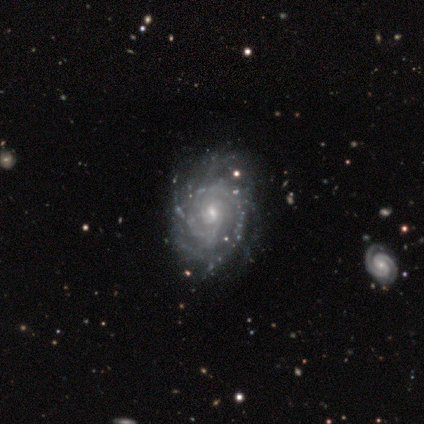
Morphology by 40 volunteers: Volunteers were most divided on "spiral arm count": more than 4: 35%, can't tell: 30%, 2: 19%, 3: 8%, 4: 5%, 1: 3%. Remaining: edge-on disk — no (100%); smooth or featured — featured or disk (98%); spiral arms — yes (95%); bar — no (74%); spiral winding — tight (73%); bulge size — small (69%); merging — none (48%).